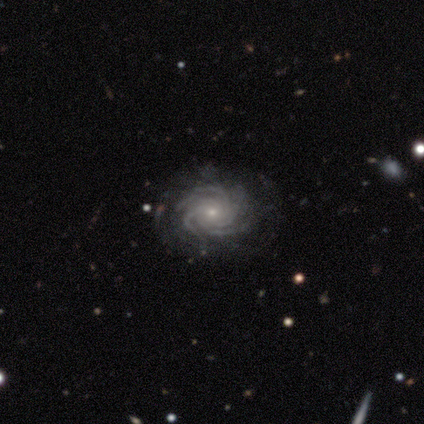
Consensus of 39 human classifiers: A featured or disk galaxy (92%) with no bar (86%), more than 4 (60%) tight (83%) spiral arms (100%) and a small central bulge (77%).

Vote fractions:
- Smooth or featured? featured or disk: 92% / star or artifact: 5% / smooth: 3%
- Edge-on disk? no: 97% / yes: 3%
- Bar? no: 86% / strong: 9% / weak: 6%
- Spiral arms? yes: 100% / no: 0%
- Spiral winding? tight: 83% / medium: 17% / loose: 0%
- Spiral arm count? more than 4: 60% / 4: 31% / 3: 6% / can't tell: 3% / 1: 0% / 2: 0%
- Bulge size? small: 77% / moderate: 20% / none: 3% / dominant: 0% / large: 0%
- Merging? none: 86% / minor disturbance: 11% / major disturbance: 3% / merger: 0%